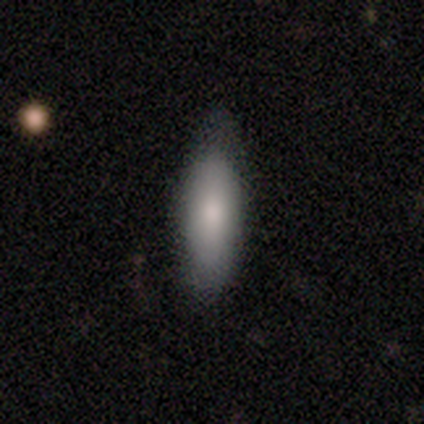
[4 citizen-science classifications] This is likely a smooth galaxy (75%). How rounded: clearly in between (100%). Merging: likely none (75%).